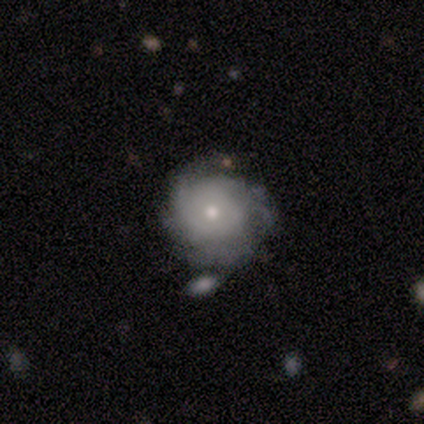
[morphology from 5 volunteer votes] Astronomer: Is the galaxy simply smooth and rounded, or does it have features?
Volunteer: featured or disk — 100%.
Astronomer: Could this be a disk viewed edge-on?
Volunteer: no — 100%.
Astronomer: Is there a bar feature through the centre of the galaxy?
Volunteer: no — 80%.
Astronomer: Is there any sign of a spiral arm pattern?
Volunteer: yes — 80%.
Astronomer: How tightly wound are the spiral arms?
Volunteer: tight — 100%.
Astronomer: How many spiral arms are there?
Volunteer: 3 — 50%.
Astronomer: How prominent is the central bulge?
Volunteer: small — 80%.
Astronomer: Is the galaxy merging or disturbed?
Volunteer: none — 40%, tied with minor disturbance at 40%.